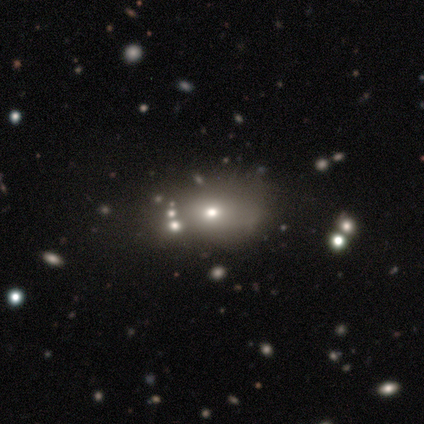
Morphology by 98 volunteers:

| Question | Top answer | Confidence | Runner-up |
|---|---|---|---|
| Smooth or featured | smooth | 59% | star or artifact (24%) |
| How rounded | in between | 71% | round (29%) |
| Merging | none | 59% | minor disturbance (19%) |